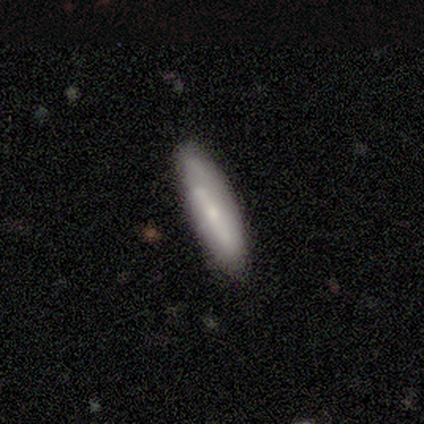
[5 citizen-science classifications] Volunteers were most divided on "smooth or featured": smooth: 60%, featured or disk: 40%, star or artifact: 0%. More confident: how rounded — cigar-shaped (100%); merging — none (80%).